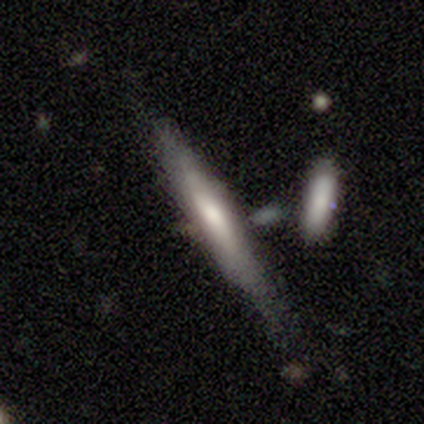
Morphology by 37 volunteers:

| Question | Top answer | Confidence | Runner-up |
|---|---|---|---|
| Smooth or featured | smooth | 46% | featured or disk (43%) |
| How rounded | cigar-shaped | 100% | — |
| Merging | none | 58% | minor disturbance (24%) |